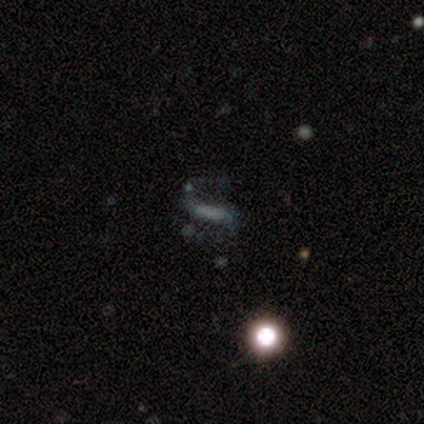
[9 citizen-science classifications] Smooth or featured: star or artifact — 44% (smooth — 33%)